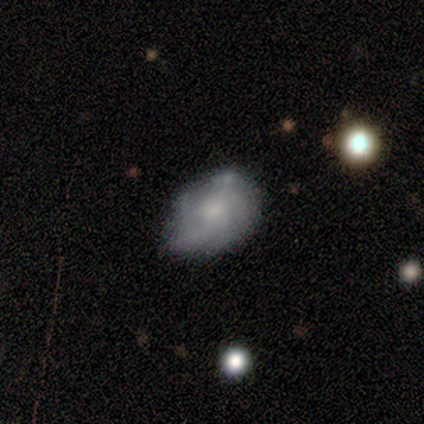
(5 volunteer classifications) Morphology: type=featured or disk (80%); edge-on=no (100%); bar=weak (50%, tied with no); spiral arms=yes (100%); winding=tight (50%, tied with medium); arm count=4 (50%); bulge=none (50%); merging=none (60%).